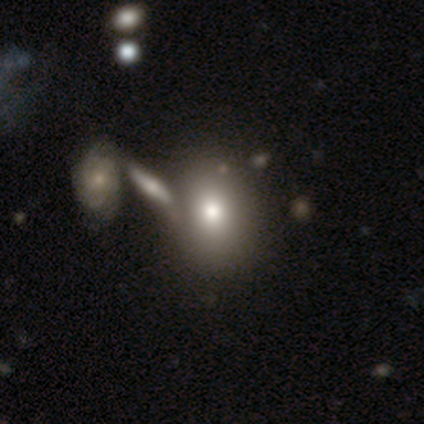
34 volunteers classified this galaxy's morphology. A smooth galaxy with no disk features (76%) that is in between round and cigar-shaped (54%). Merging: merger (50%).